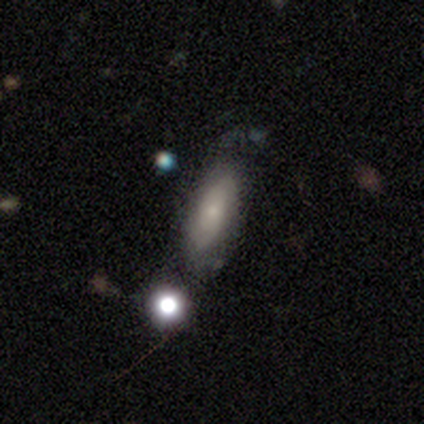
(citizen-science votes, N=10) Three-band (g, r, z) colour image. It shows a featured or disk galaxy (50%) with no bar (100%), 2 (67%) tight (33%, tied with medium and loose) spiral arms (60%) and a small central bulge (60%). Merging: none (44%).